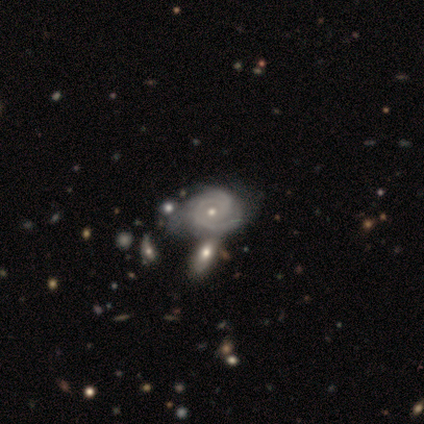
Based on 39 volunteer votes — featured or disk 87%, smooth 8%, star or artifact 5%. Down the decision tree: edge-on disk — no (97%); bar — no (82%); spiral arms — yes (94%); spiral arm count — 2 (42%); spiral winding — tight (77%); bulge size — small (52%); merging — none (38%).